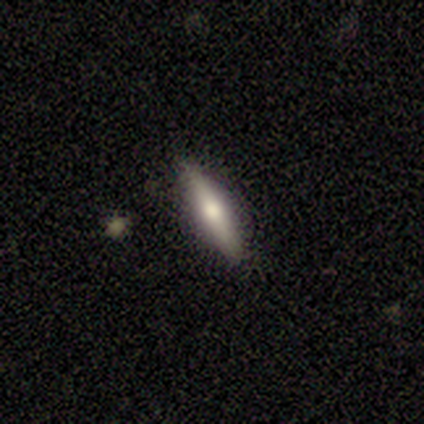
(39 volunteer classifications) A smooth galaxy with no disk features (51%) that is cigar-shaped (90%).

Vote fractions:
- Smooth or featured? smooth: 51% / featured or disk: 49% / star or artifact: 0%
- How rounded? cigar-shaped: 90% / in between: 10% / round: 0%
- Merging? none: 87% / minor disturbance: 8% / major disturbance: 3% / merger: 3%